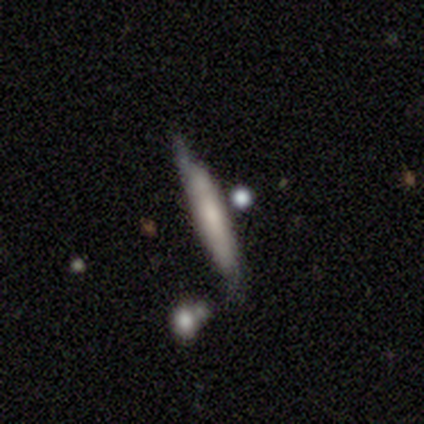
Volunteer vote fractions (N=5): This appears to be a featured or disk galaxy (80%) viewed edge-on (100%) with a boxy central bulge (50%, tied with none). Merging: none (40%, tied with minor disturbance).